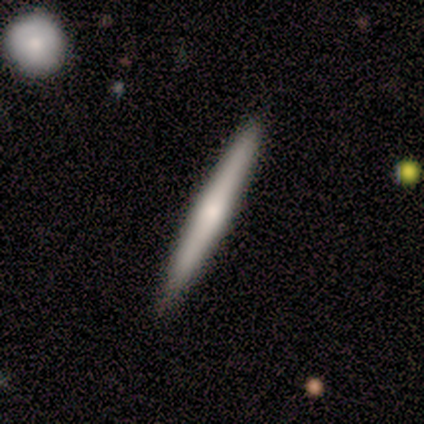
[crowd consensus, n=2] This appears to be a smooth galaxy with no disk features (50%, tied with featured or disk) that is cigar-shaped (100%). Merging: none (100%).